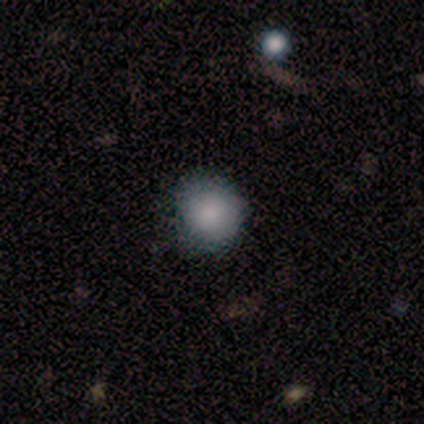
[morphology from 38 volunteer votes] smooth 76%, featured or disk 16%, star or artifact 8%. Down the decision tree: how rounded — round (100%); merging — none (69%).